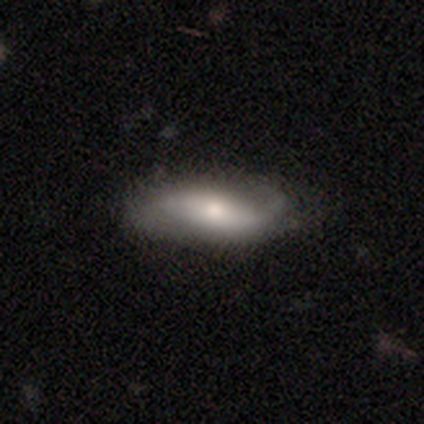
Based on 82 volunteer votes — Smooth or featured? 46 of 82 (56%) said featured or disk. Edge-on disk? 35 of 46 (76%) said no. Bar? 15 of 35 (43%) said no. Spiral arms? 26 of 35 (74%) said yes. Spiral winding? 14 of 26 (54%) said loose. Spiral arm count? 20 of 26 (77%) said 2. Bulge size? 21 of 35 (60%) said moderate. Merging? 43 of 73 (59%) said none.